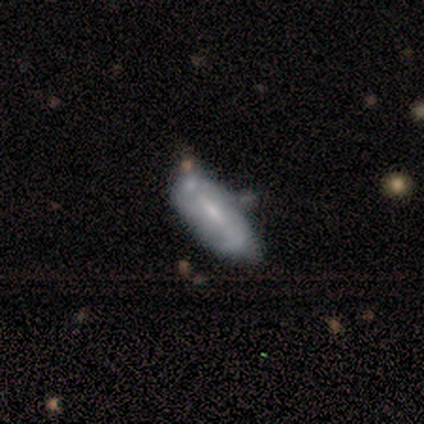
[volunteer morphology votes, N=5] featured or disk 100%, smooth 0%, star or artifact 0%. Down the decision tree: edge-on disk — no (100%); bar — strong (80%); spiral arms — yes (60%); spiral arm count — 2 (67%); spiral winding — medium (67%); bulge size — small (100%); merging — minor disturbance (100%).